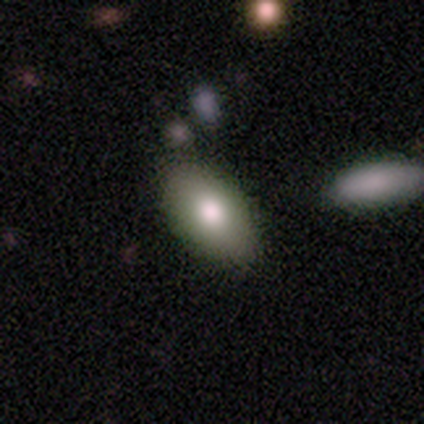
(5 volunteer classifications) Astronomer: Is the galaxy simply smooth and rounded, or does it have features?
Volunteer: smooth — 60%.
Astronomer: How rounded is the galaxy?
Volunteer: in between — 100%.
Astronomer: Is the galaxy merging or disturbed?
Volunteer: none — 100%.